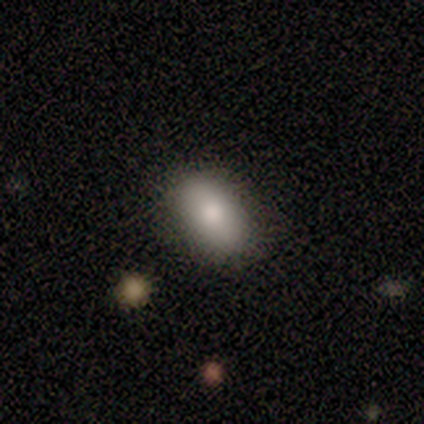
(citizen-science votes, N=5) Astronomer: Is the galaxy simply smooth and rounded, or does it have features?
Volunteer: smooth — 100%.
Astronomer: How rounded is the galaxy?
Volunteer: in between — 80%.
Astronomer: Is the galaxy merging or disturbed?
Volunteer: none — 80%.